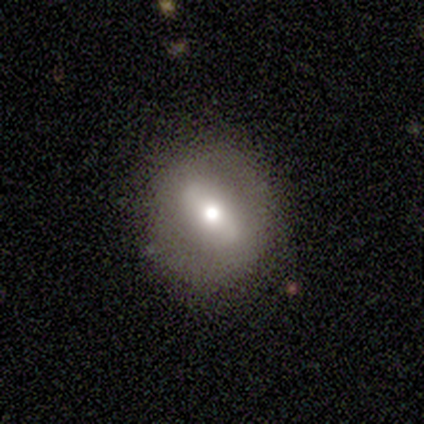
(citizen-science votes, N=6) Smooth or featured: smooth — 50% (tied with featured or disk — 50%)
How rounded: round — 100%
Merging: none — 67% (minor disturbance — 33%)